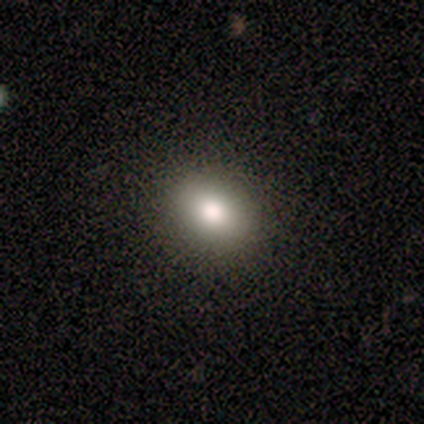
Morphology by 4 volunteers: smooth_or_featured: smooth (p=0.50) [alt: featured or disk p=0.25]
how_rounded: round (p=0.50) [tied with: in between p=0.50]
merging: none (p=1.00)